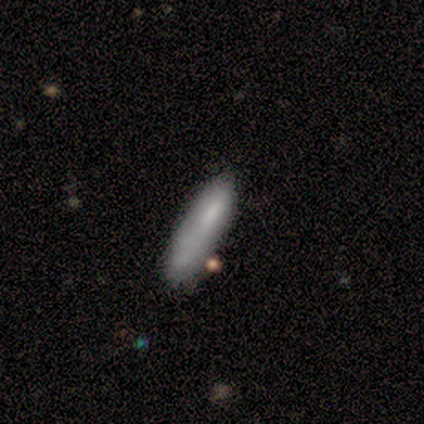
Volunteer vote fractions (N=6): This is clearly a smooth galaxy (100%). How rounded: likely cigar-shaped (67%). Merging: marginally none (33%, tied with major disturbance).